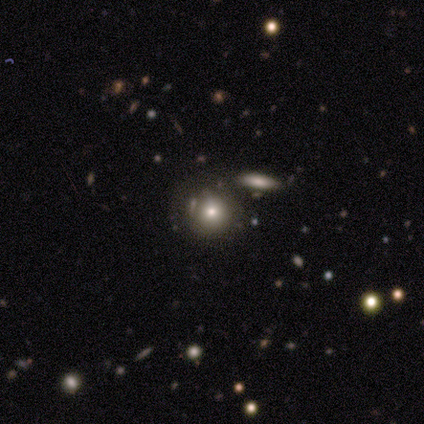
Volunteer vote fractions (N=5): A smooth galaxy with no disk features (80%) that is round (100%). Merging: none (60%).